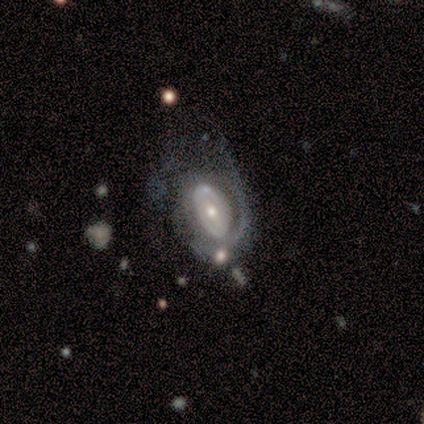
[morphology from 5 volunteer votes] Smooth or featured? featured or disk (60%)
Edge-on disk? no (100%)
Bar? weak (67%)
Spiral arms? yes (100%)
Spiral winding? tight (67%)
Spiral arm count? 2 (33%, tied with 3 and can't tell)
Bulge size? moderate (67%)
Merging? none (60%)